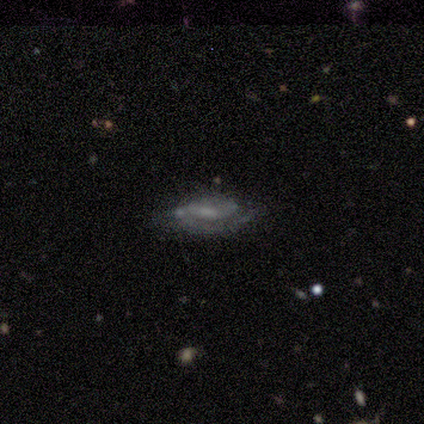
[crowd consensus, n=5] Volunteers were most divided on "merging" (2-way tie): none: 50%, minor disturbance: 50%, major disturbance: 0%, merger: 0%. More confident: edge-on disk — no (100%); smooth or featured — featured or disk (80%); spiral arms — yes (75%); spiral winding — medium (67%); spiral arm count — 2 (67%); bar — no (50%); bulge size — none (50%).